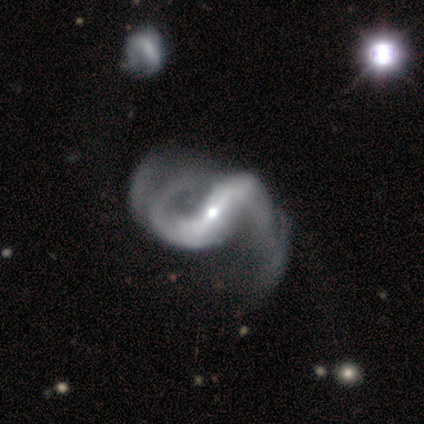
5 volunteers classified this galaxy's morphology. Smooth or featured? featured or disk (100%)
Edge-on disk? no (100%)
Bar? strong (80%)
Spiral arms? yes (100%)
Spiral winding? loose (80%)
Spiral arm count? 2 (60%)
Bulge size? small (60%)
Merging? minor disturbance (40%, tied with major disturbance)